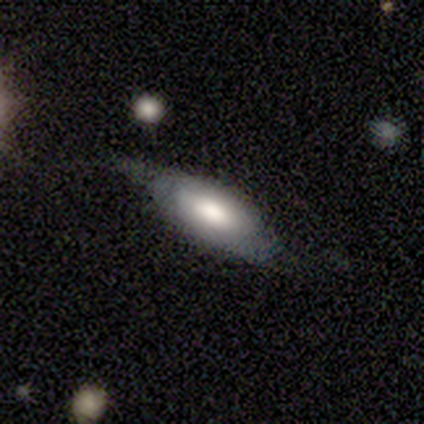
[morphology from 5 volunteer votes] A smooth galaxy with no disk features (80%) that is in between round and cigar-shaped (100%).

Vote fractions:
- Smooth or featured? smooth: 80% / featured or disk: 20% / star or artifact: 0%
- How rounded? in between: 100% / round: 0% / cigar-shaped: 0%
- Merging? none: 60% / minor disturbance: 40% / major disturbance: 0% / merger: 0%